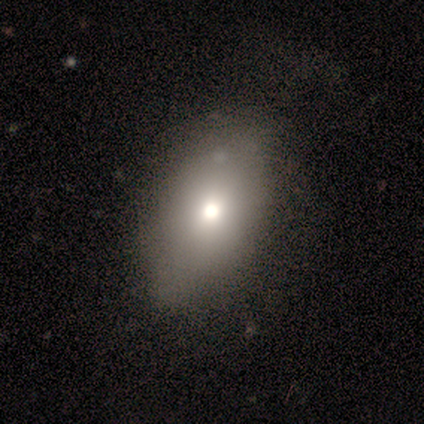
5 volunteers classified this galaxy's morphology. A smooth galaxy with no disk features (60%) that is in between round and cigar-shaped (100%). Merging: none (50%).